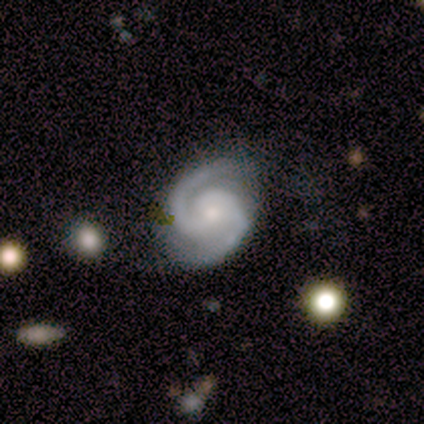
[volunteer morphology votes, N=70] A featured or disk galaxy (91%) with no bar (76%), 2 (98%) tight (54%) spiral arms (97%) and a small central bulge (48%). Merging: none (73%).